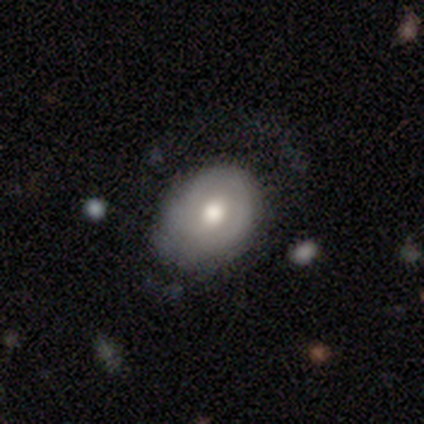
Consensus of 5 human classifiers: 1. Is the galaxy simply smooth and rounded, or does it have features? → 80% smooth, 20% featured or disk, 0% star or artifact.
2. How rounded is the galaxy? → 100% in between, 0% round, 0% cigar-shaped.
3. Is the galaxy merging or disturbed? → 80% minor disturbance, 20% none, 0% major disturbance, 0% merger.